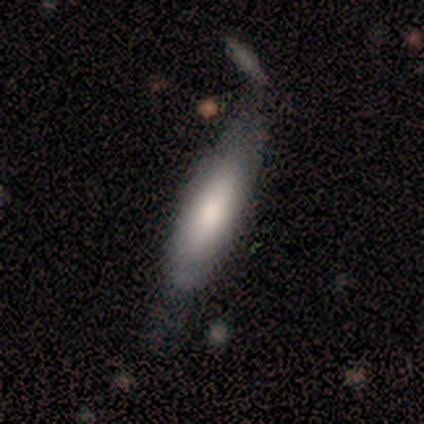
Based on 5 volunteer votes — Smooth or featured? smooth (80%)
How rounded? cigar-shaped (75%)
Merging? minor disturbance (60%)